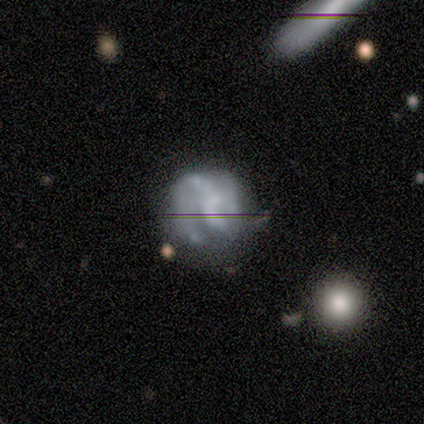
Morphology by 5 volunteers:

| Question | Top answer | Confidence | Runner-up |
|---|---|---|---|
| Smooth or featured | featured or disk | 100% | — |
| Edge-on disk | no | 100% | — |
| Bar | no | 100% | — |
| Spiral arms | no | 60% | yes (40%) |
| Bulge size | none | 80% | large (20%) |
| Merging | minor disturbance | 40% | tied: major disturbance (40%) |